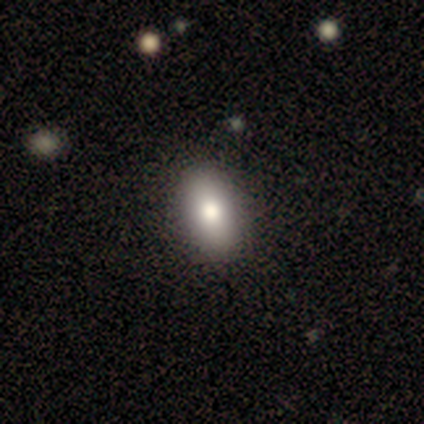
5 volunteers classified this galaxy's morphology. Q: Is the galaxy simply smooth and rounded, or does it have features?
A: smooth — 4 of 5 (80%).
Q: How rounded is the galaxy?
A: in between — 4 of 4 (100%).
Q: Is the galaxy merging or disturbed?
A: none — 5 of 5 (100%).